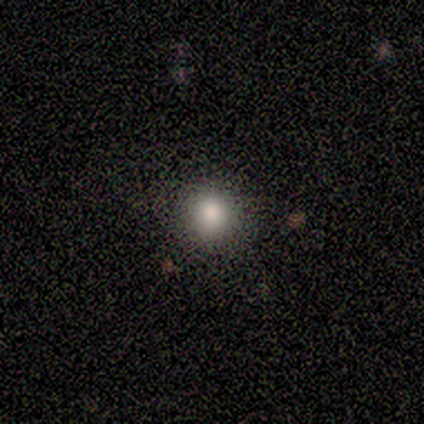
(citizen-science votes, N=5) smooth_or_featured: smooth (p=0.40) [tied with: star or artifact p=0.40]
how_rounded: round (p=1.00)
merging: none (p=1.00)